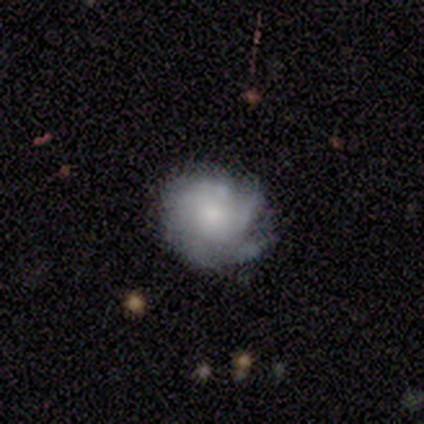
Smooth or featured?
  - featured or disk: 68% *
  - smooth: 28%
  - star or artifact: 5%
Edge-on disk?
  - no: 96% *
  - yes: 4%
Bar?
  - no: 85% *
  - weak: 12%
  - strong: 4%
Spiral arms?
  - yes: 100% *
  - no: 0%
Spiral winding?
  - tight: 85% *
  - medium: 15%
  - loose: 0%
Spiral arm count?
  - can't tell: 65% *
  - 2: 12%
  - more than 4: 12%
  - 1: 4%
  - 3: 4%
  - 4: 4%
Bulge size?
  - small: 46% *
  - moderate: 27%
  - dominant: 12%
  - large: 12%
  - none: 4%
Merging?
  - none: 68% *
  - minor disturbance: 21%
  - major disturbance: 8%
  - merger: 3%